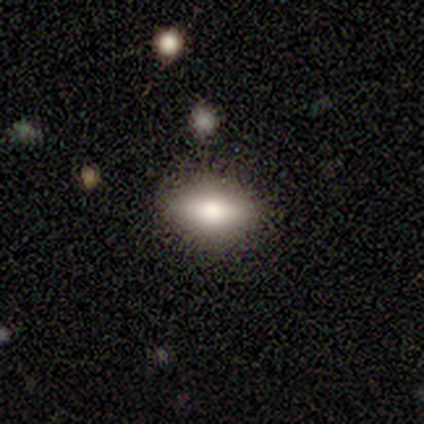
This appears to be a smooth galaxy with no disk features (60%) that is in between round and cigar-shaped (100%). Merging: none (75%).